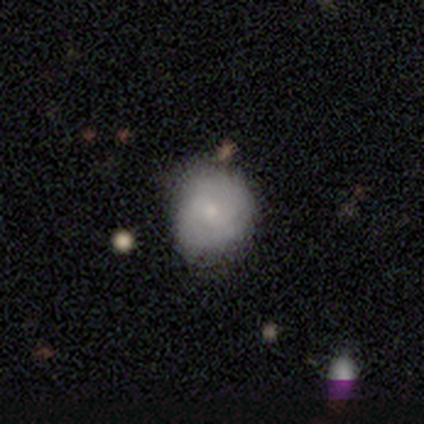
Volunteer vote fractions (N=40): Volunteers were most divided on "smooth or featured": smooth: 45%, featured or disk: 38%, star or artifact: 18%. More confident: how rounded — round (83%); merging — none (55%).